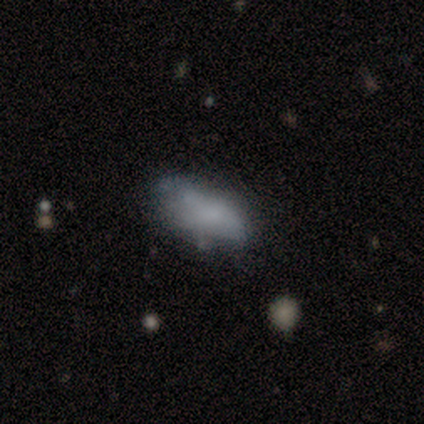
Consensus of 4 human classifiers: A smooth galaxy with no disk features (100%) that is in between round and cigar-shaped (100%). Merging: minor disturbance (75%).